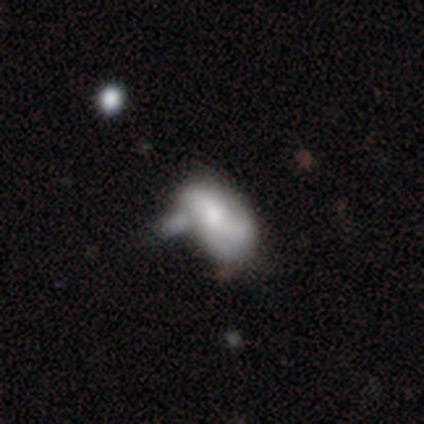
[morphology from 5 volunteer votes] Overall: smooth (60%; featured or disk 40%). How rounded: in between (100%). Merging: none (40%, tied with minor disturbance).